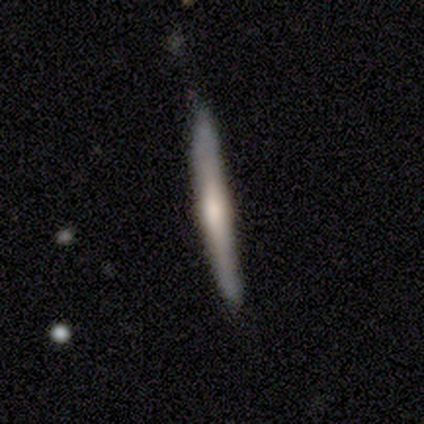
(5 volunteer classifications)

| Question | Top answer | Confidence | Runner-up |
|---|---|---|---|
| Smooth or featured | featured or disk | 60% | smooth (40%) |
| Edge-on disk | yes | 100% | — |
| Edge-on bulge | rounded | 67% | boxy (33%) |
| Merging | minor disturbance | 60% | none (40%) |